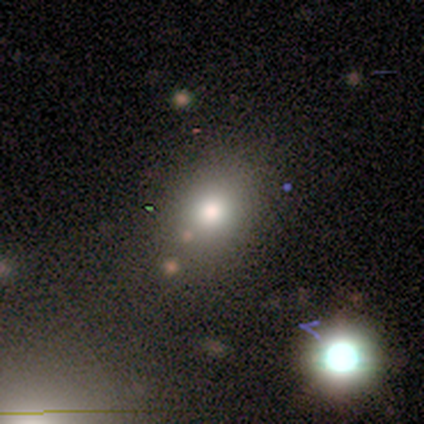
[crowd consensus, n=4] A smooth galaxy with no disk features (75%) that is round (100%).

Vote fractions:
- Smooth or featured? smooth: 75% / star or artifact: 25% / featured or disk: 0%
- How rounded? round: 100% / in between: 0% / cigar-shaped: 0%
- Merging? none: 100% / minor disturbance: 0% / major disturbance: 0% / merger: 0%